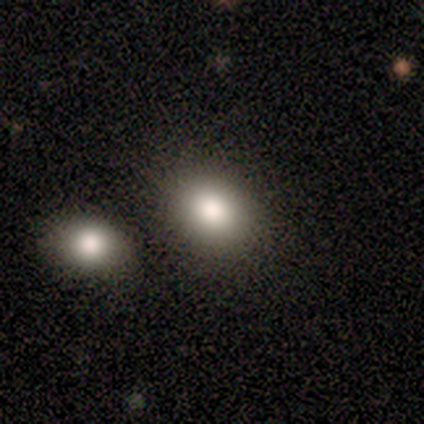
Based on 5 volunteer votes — smooth_or_featured: smooth (p=1.00)
how_rounded: round (p=0.60) [alt: in between p=0.40]
merging: none (p=0.40) [tied with: minor disturbance p=0.40]